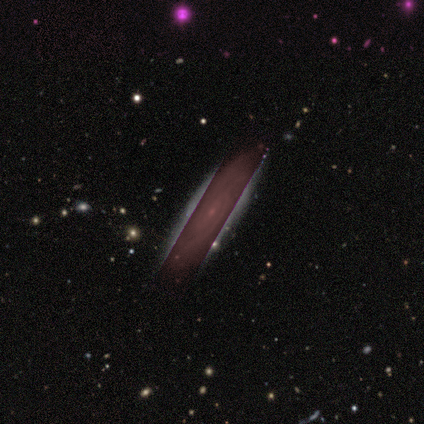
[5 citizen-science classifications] Smooth or featured: featured or disk — 60% (star or artifact — 40%)
Edge-on disk: no — 100%
Bar: no — 67% (weak — 33%)
Spiral arms: yes — 100%
Spiral winding: medium — 67% (tight — 33%)
Spiral arm count: 4 — 33% (tied with more than 4 — 33%; can't tell — 33%)
Bulge size: small — 67% (moderate — 33%)
Merging: none — 100%